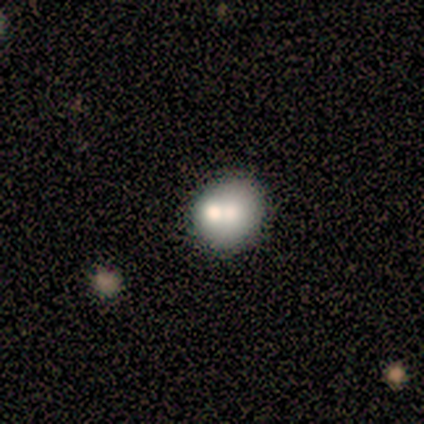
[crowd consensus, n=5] smooth 60%, featured or disk 20%, star or artifact 20%. Down the decision tree: how rounded — in between (67%); merging — none (75%).